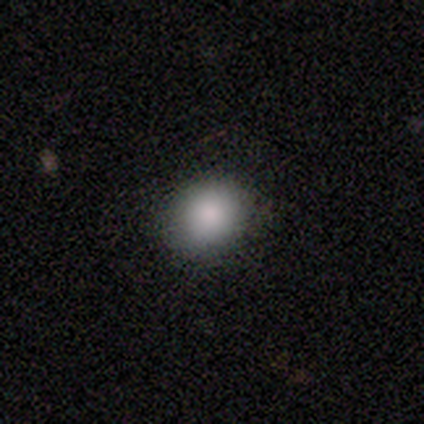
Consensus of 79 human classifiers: Volunteers were most divided on "how rounded": round: 72%, in between: 28%, cigar-shaped: 0%. More confident: smooth or featured — smooth (91%); merging — none (61%).